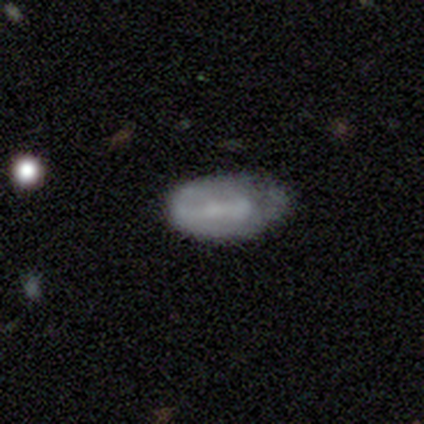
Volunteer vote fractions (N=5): Smooth or featured: smooth — 100%
How rounded: in between — 100%
Merging: minor disturbance — 60% (none — 20%)